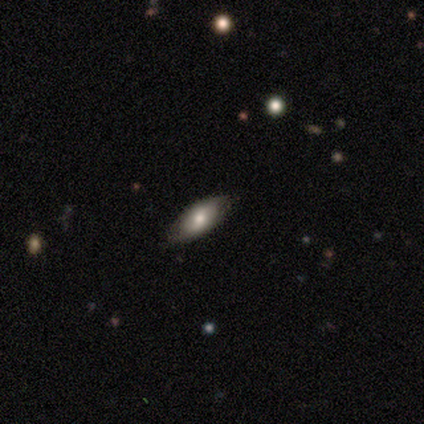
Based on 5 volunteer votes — Smooth or featured?
  - smooth: 80% *
  - featured or disk: 20%
  - star or artifact: 0%
How rounded?
  - in between: 100% *
  - round: 0%
  - cigar-shaped: 0%
Merging?
  - none: 60% *
  - minor disturbance: 40%
  - major disturbance: 0%
  - merger: 0%